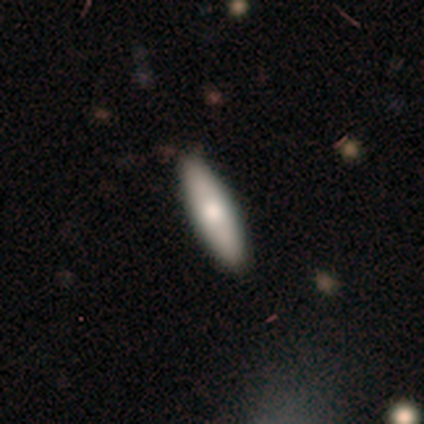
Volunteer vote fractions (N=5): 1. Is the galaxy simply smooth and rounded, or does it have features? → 80% smooth, 20% featured or disk, 0% star or artifact.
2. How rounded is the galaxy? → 100% cigar-shaped, 0% round, 0% in between.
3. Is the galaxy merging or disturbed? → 80% none, 20% minor disturbance, 0% major disturbance, 0% merger.